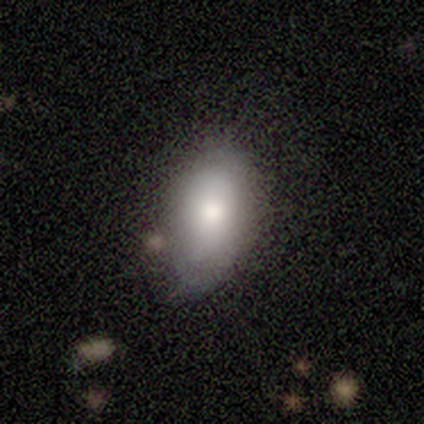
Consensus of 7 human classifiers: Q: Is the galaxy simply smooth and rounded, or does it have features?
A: smooth — 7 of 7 (100%).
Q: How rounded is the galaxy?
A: in between — 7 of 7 (100%).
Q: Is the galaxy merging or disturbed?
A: none — 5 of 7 (71%).